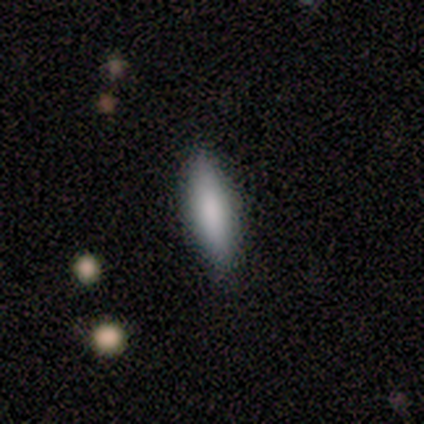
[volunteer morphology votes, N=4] smooth-or-featured: smooth: 75% | featured or disk: 25% | star or artifact: 0%
  how-rounded: cigar-shaped: 67% | in between: 33% | round: 0%
  merging: none: 100% | minor disturbance: 0% | major disturbance: 0% | merger: 0%